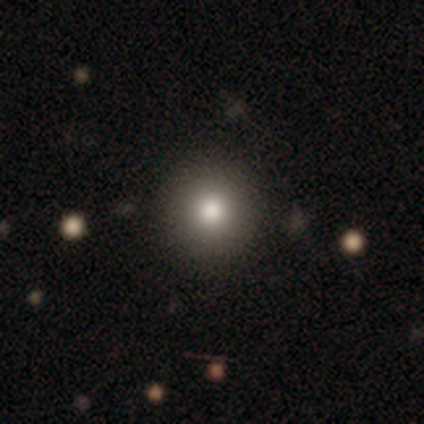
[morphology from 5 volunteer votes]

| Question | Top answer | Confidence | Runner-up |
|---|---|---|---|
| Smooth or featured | star or artifact | 60% | smooth (40%) |